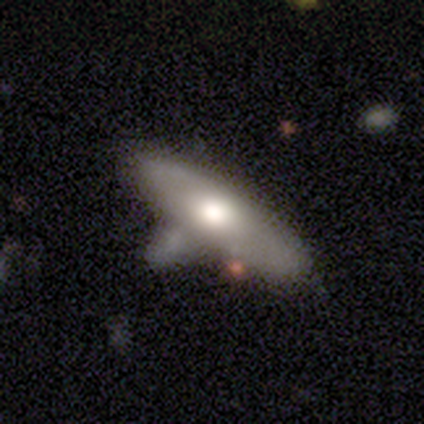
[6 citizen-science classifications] A smooth galaxy with no disk features (83%) that is in between round and cigar-shaped (80%).

Vote fractions:
- Smooth or featured? smooth: 83% / featured or disk: 17% / star or artifact: 0%
- How rounded? in between: 80% / cigar-shaped: 20% / round: 0%
- Merging? none: 33% (tied) / minor disturbance: 33% (tied) / merger: 33% (tied) / major disturbance: 0%